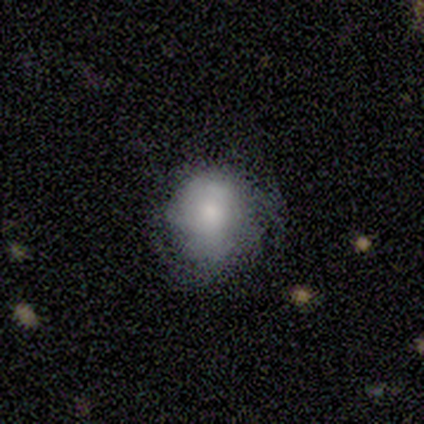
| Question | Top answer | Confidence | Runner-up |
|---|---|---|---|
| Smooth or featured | smooth | 60% | featured or disk (40%) |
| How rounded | round | 100% | — |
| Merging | minor disturbance | 40% | tied: major disturbance (40%) |